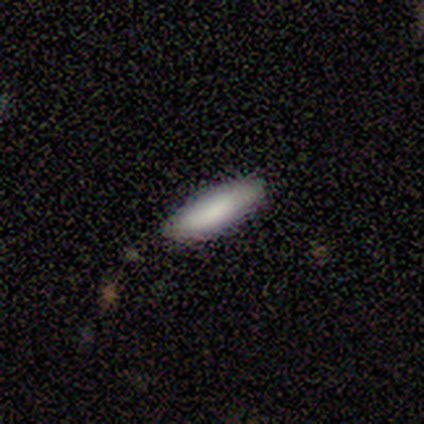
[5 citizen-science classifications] smooth_or_featured: smooth (p=0.80) [alt: star or artifact p=0.20]
how_rounded: in between (p=0.75) [alt: cigar-shaped p=0.25]
merging: none (p=1.00)